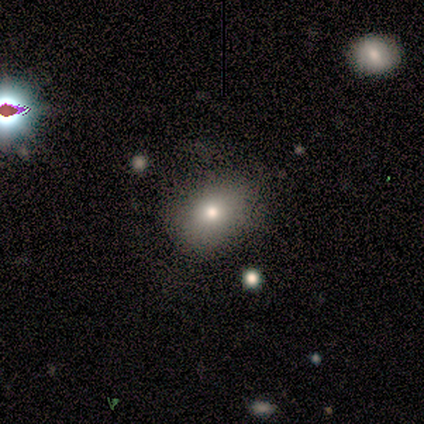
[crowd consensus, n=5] Smooth or featured: smooth — 100%
How rounded: in between — 80% (round — 20%)
Merging: none — 80% (major disturbance — 20%)